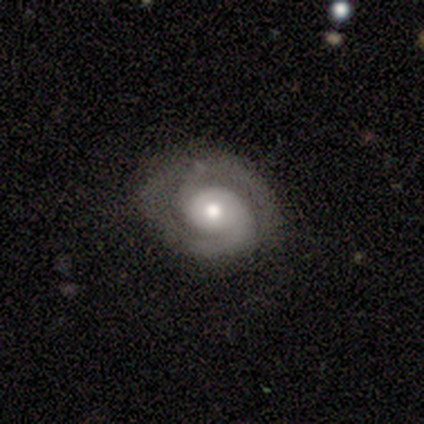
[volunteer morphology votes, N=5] Volunteers were most divided on "bar" (2-way tie): weak: 50%, no: 50%, strong: 0%. More confident: edge-on disk — no (100%); spiral arms — yes (100%); spiral arm count — 2 (100%); smooth or featured — featured or disk (80%); merging — none (80%); spiral winding — tight (75%); bulge size — large (75%).